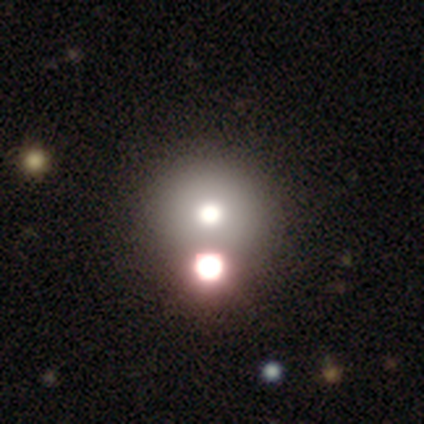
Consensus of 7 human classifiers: Volunteers were most divided on "smooth or featured": featured or disk: 43%, smooth: 29%, star or artifact: 29%. More confident: edge-on disk — no (100%); bar — no (100%); spiral arms — no (100%); bulge size — moderate (67%); merging — none (60%).